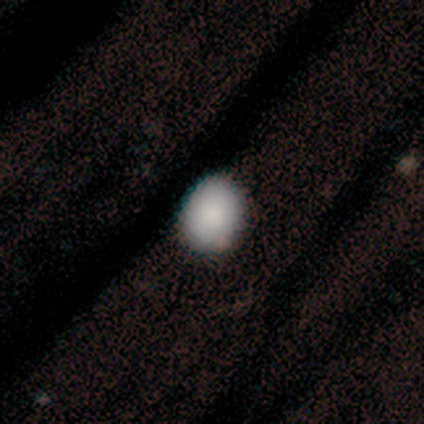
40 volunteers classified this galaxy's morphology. Smooth or featured?
  - smooth: 85% *
  - featured or disk: 8%
  - star or artifact: 8%
How rounded?
  - round: 53% *
  - in between: 47%
  - cigar-shaped: 0%
Merging?
  - none: 59% *
  - minor disturbance: 8%
  - major disturbance: 0%
  - merger: 0%